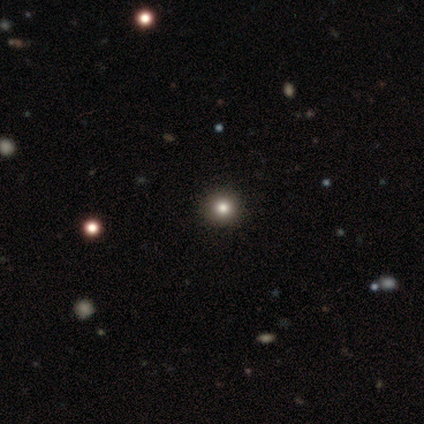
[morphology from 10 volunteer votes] Overall: smooth (40%, tied with star or artifact). How rounded: round (75%). Merging: none (100%).